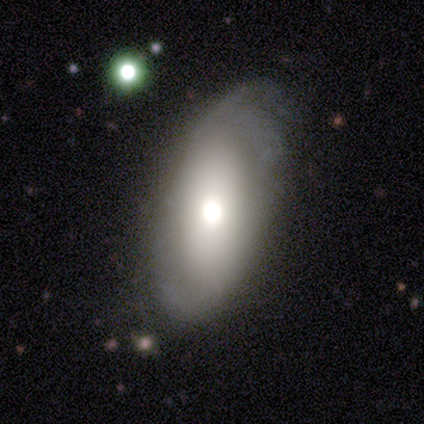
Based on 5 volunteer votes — This appears to be a featured or disk galaxy (60%) with no bar (67%), 2 (100%) medium (50%, tied with loose) spiral arms (67%) and a dominant central bulge (33%, tied with large and moderate). Merging: none (80%).